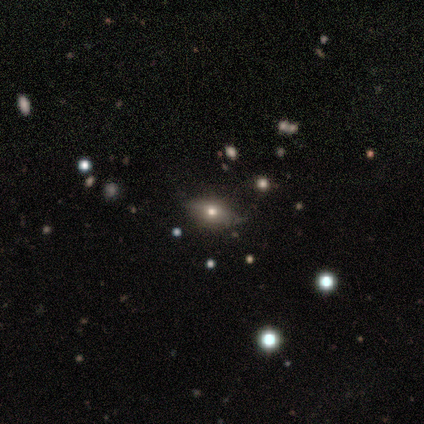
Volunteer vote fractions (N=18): A smooth galaxy with no disk features (61%) that is in between round and cigar-shaped (91%). Merging: none (80%).